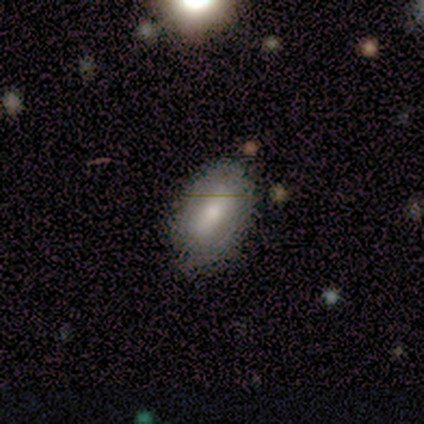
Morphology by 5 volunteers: Smooth or featured? 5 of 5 (100%) said smooth. How rounded? 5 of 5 (100%) said in between. Merging? 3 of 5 (60%) said none.